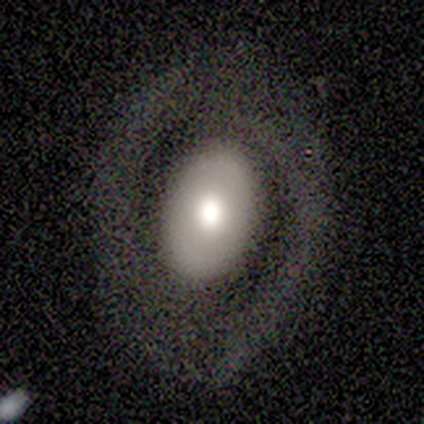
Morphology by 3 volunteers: Smooth or featured? featured or disk (100%)
Edge-on disk? no (100%)
Bar? no (100%)
Spiral arms? no (100%)
Bulge size? dominant (33%, tied with large and moderate)
Merging? none (100%)